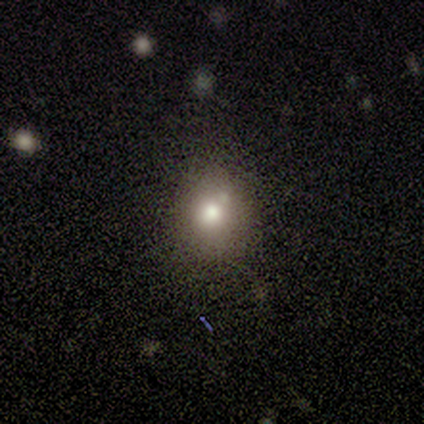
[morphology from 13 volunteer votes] type=smooth (69%); roundness=round (67%); merging=none (73%).